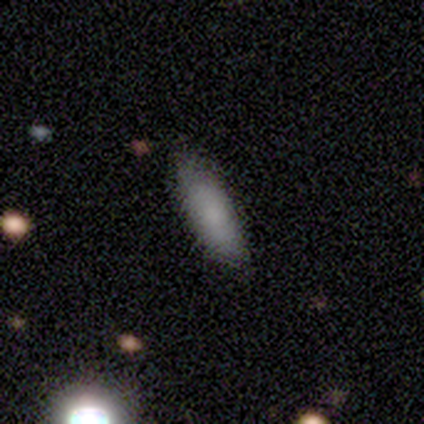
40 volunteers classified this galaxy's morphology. type=smooth (78%); roundness=cigar-shaped (61%); merging=none (89%).